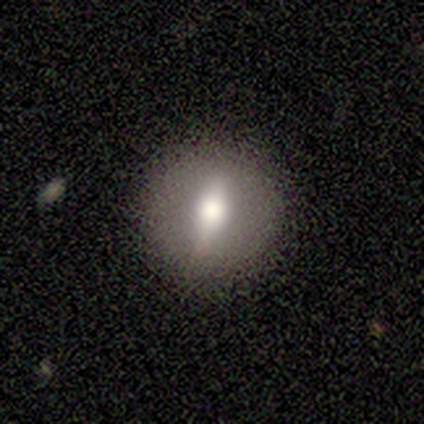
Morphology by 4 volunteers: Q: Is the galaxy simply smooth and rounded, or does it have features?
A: smooth — 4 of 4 (100%).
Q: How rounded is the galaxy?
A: round — 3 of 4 (75%).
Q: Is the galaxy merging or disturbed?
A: none — 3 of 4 (75%).